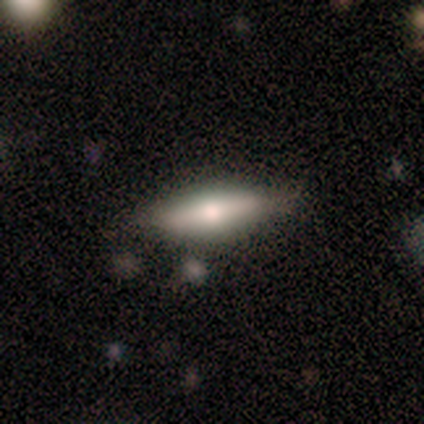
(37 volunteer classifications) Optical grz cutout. It shows a smooth galaxy with no disk features (49%, tied with featured or disk) that is cigar-shaped (83%). Merging: none (75%).